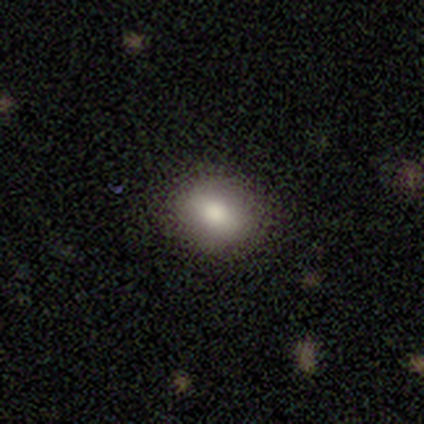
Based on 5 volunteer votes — Overall: smooth (80%). How rounded: round (50%, tied with in between). Merging: none (75%).